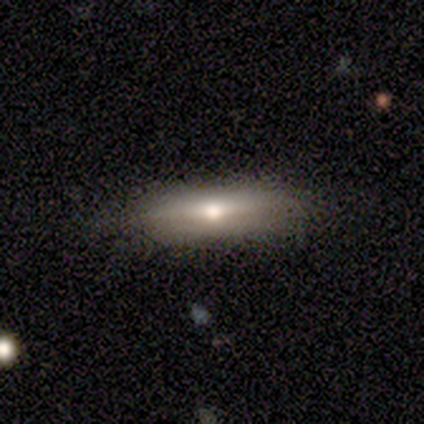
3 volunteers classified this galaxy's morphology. Volunteers were most divided on "smooth or featured" (3-way tie): smooth: 33%, featured or disk: 33%, star or artifact: 33%. More confident: how rounded — cigar-shaped (100%); merging — none (100%).